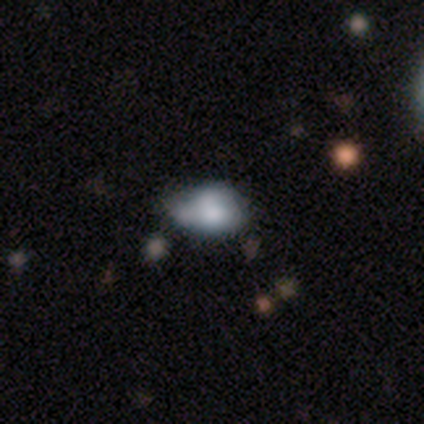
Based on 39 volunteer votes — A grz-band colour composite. It shows a smooth galaxy with no disk features (62%) that is in between round and cigar-shaped (79%). Merging: minor disturbance (47%).